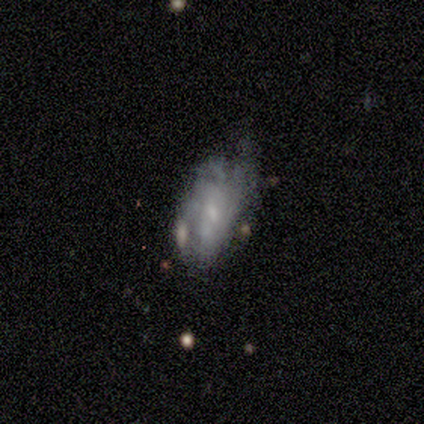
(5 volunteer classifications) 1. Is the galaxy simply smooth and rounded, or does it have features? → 40% smooth (tied), 40% featured or disk (tied), 20% star or artifact.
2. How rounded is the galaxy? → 100% in between, 0% round, 0% cigar-shaped.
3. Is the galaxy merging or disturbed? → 75% minor disturbance, 25% none, 0% major disturbance, 0% merger.